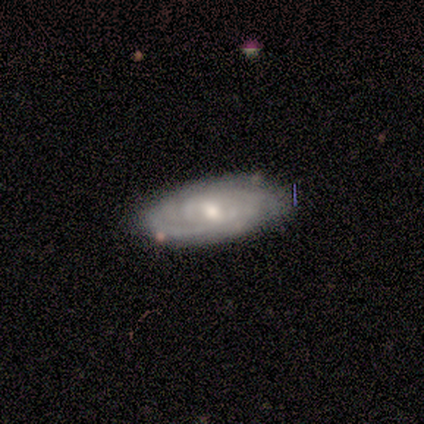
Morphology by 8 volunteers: A featured or disk galaxy (88%) with no bar (50%), tight (83%) spiral arms (100%) and a moderate central bulge (67%).

Vote fractions:
- Smooth or featured? featured or disk: 88% / smooth: 12% / star or artifact: 0%
- Edge-on disk? no: 86% / yes: 14%
- Bar? no: 50% / weak: 33% / strong: 17%
- Spiral arms? yes: 100% / no: 0%
- Spiral winding? tight: 83% / medium: 17% / loose: 0%
- Spiral arm count? can't tell: 50% / 3: 17% / 4: 17% / more than 4: 17% / 1: 0% / 2: 0%
- Bulge size? moderate: 67% / small: 33% / dominant: 0% / large: 0% / none: 0%
- Merging? none: 88% / minor disturbance: 12% / major disturbance: 0% / merger: 0%